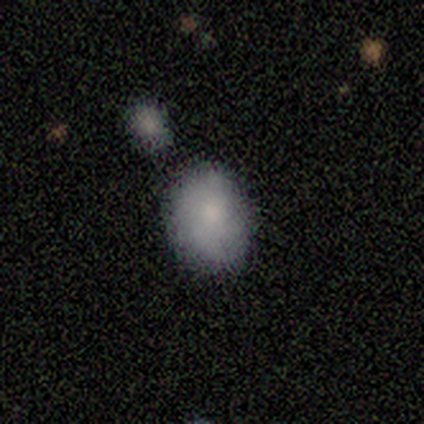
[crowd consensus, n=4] A smooth galaxy with no disk features (75%) that is in between round and cigar-shaped (100%). Merging: none (100%).